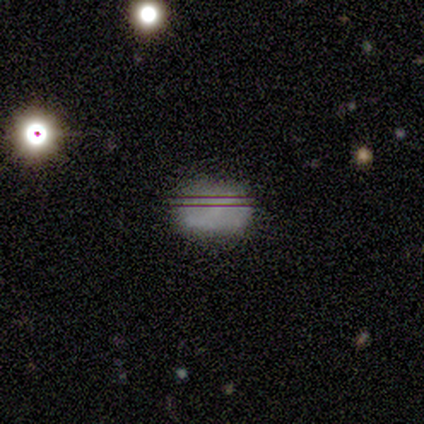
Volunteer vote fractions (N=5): Smooth or featured? smooth (60%)
How rounded? in between (100%)
Merging? none (75%)